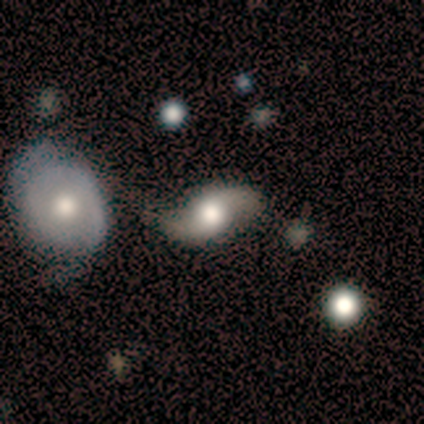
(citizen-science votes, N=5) This appears to be a featured or disk galaxy (80%) with no bar (100%), 2 (100%) loose (100%) spiral arms (75%) and a moderate central bulge (50%). Merging: none (60%).